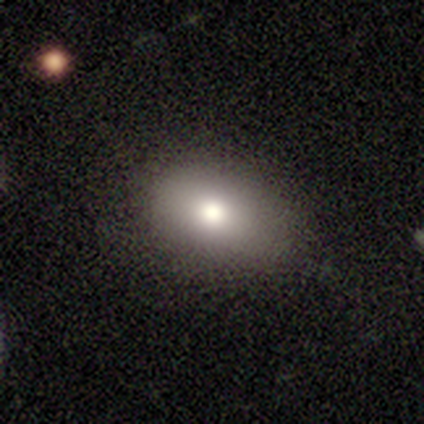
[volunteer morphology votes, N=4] A smooth galaxy with no disk features (100%) that is in between round and cigar-shaped (75%). Merging: none (100%).